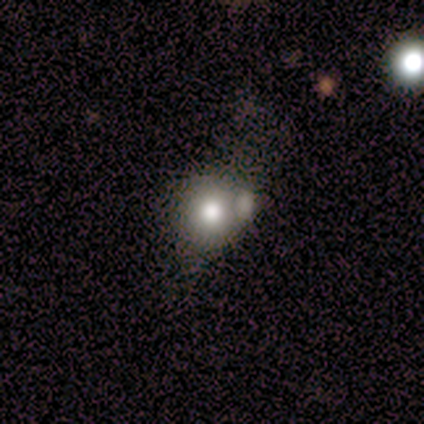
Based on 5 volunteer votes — Morphology: type=smooth (80%); roundness=round (75%); merging=none (60%).